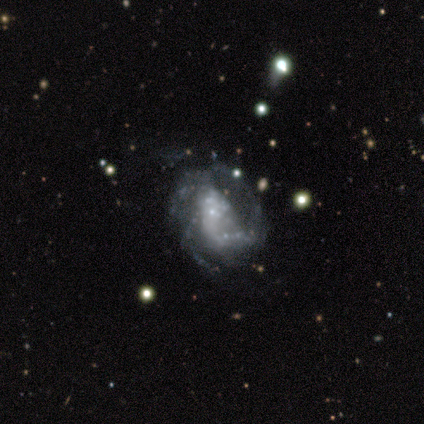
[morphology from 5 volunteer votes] type=featured or disk (100%); edge-on=no (100%); bar=no (60%); spiral arms=yes (80%); winding=medium (50%); arm count=3 (75%); bulge=small (40%); merging=none (60%).